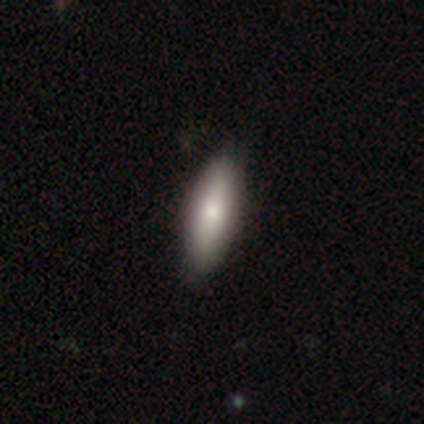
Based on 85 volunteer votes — Smooth or featured?
  - smooth: 79% *
  - featured or disk: 16%
  - star or artifact: 5%
How rounded?
  - cigar-shaped: 55% *
  - in between: 43%
  - round: 1%
Merging?
  - none: 91% *
  - minor disturbance: 7%
  - major disturbance: 1%
  - merger: 0%